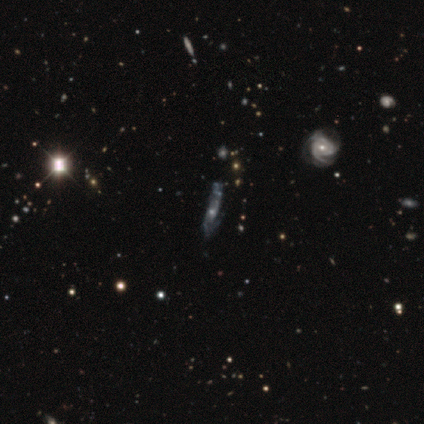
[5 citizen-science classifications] Volunteers were most divided on "merging" (2-way tie): none: 40%, major disturbance: 40%, merger: 20%, minor disturbance: 0%. More confident: smooth or featured — featured or disk (100%); edge-on disk — no (100%); bar — no (100%); spiral arm count — can't tell (100%); spiral winding — loose (67%); spiral arms — yes (60%); bulge size — moderate (60%).